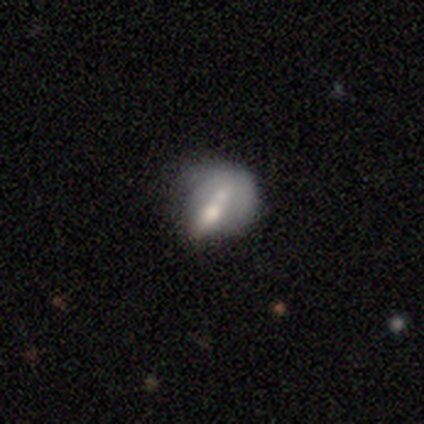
Smooth or featured? 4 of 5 (80%) said smooth. How rounded? 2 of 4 (50%, tied with in between) said round. Merging? 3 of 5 (60%) said none.